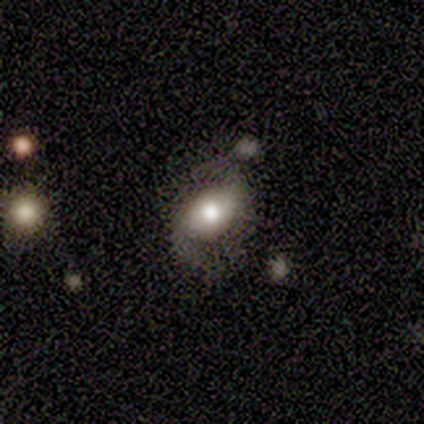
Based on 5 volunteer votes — A featured or disk galaxy (60%) with no bar (67%), 2 (100%) loose (67%) spiral arms (100%) and a moderate central bulge (67%). Merging: none (40%, tied with minor disturbance).